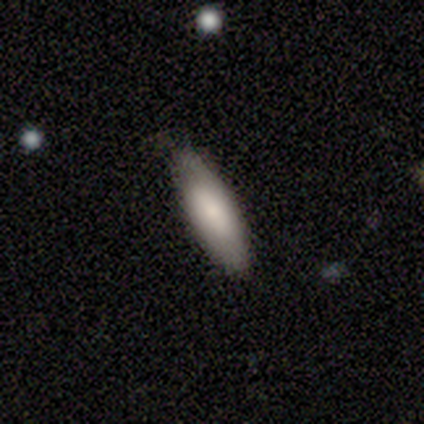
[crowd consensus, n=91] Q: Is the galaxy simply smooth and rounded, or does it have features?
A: smooth — 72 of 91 (79%).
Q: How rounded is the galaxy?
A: in between — 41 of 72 (57%).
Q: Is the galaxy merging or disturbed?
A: none — 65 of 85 (76%).